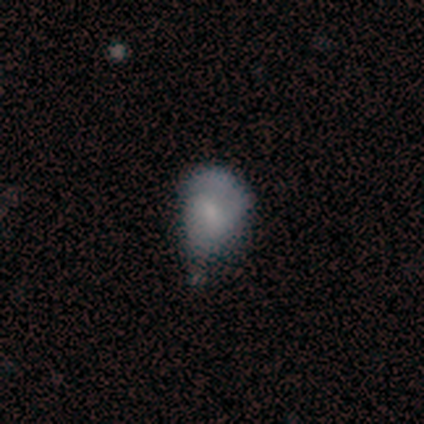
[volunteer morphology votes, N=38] smooth_or_featured: smooth (p=0.45) [tied with: featured or disk p=0.45]
how_rounded: in between (p=0.82) [alt: round p=0.18]
merging: minor disturbance (p=0.62) [alt: none p=0.24]